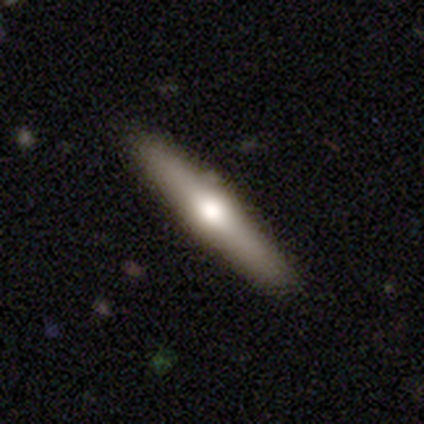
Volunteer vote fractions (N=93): Morphology: type=featured or disk (60%); edge-on=yes (91%); edge-on bulge=rounded (90%); merging=none (87%).